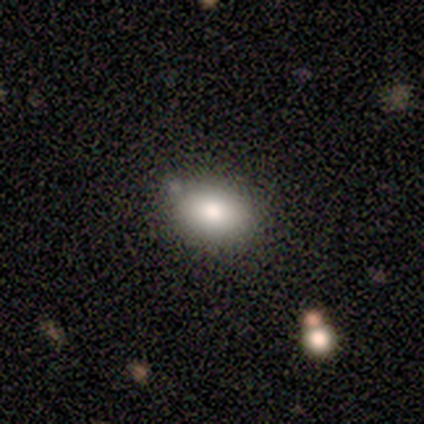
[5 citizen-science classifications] A smooth galaxy with no disk features (80%) that is in between round and cigar-shaped (100%). Merging: none (100%).